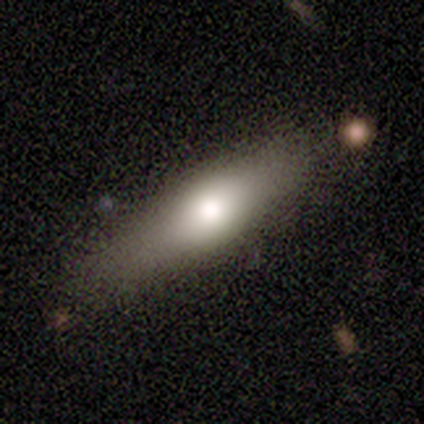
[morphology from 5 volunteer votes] Overall: smooth (80%). How rounded: cigar-shaped (75%). Merging: none (60%; minor disturbance 20%).